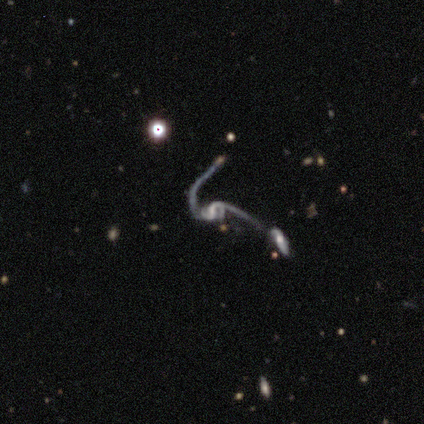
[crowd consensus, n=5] Overall: featured or disk (80%). Edge-on disk: no (100%). Bar: weak (75%). Spiral arms: yes (75%). Spiral arm count: 2 (67%; 4 33%). Spiral winding: loose (67%; medium 33%). Bulge size: none (50%; moderate 25%). Merging: major disturbance (50%, tied with merger).